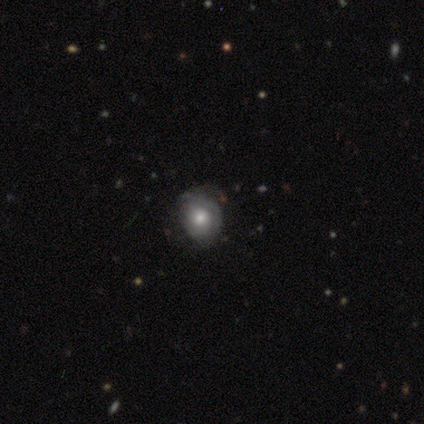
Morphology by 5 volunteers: Overall: smooth (60%; featured or disk 40%). How rounded: round (67%; in between 33%). Merging: none (80%).